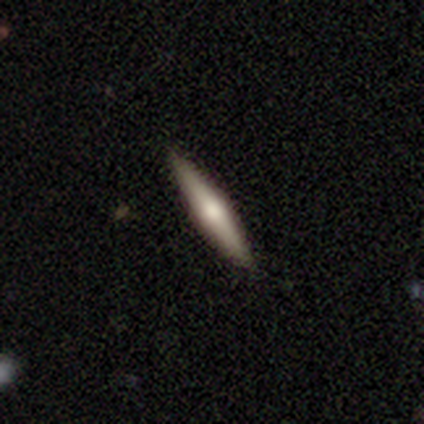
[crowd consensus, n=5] Morphology: type=smooth (40%, tied with star or artifact); roundness=cigar-shaped (100%); merging=none (100%).